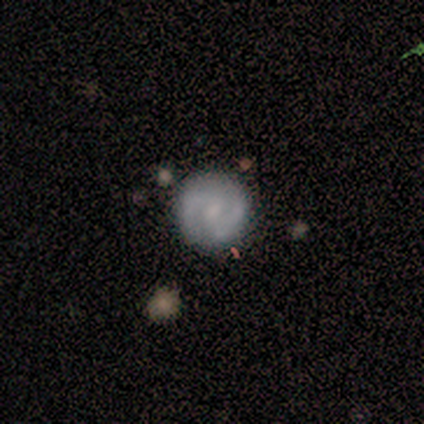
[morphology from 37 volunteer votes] smooth_or_featured: featured or disk (p=0.65) [alt: smooth p=0.32]
disk_edge_on: no (p=1.00)
bar: weak (p=0.50) [alt: no p=0.42]
has_spiral_arms: yes (p=0.92) [alt: no p=0.08]
spiral_winding: medium (p=0.55) [alt: tight p=0.36]
spiral_arm_count: 2 (p=0.73) [alt: can't tell p=0.14]
bulge_size: moderate (p=0.42) [tied with: small p=0.42]
merging: none (p=0.83) [alt: minor disturbance p=0.08]